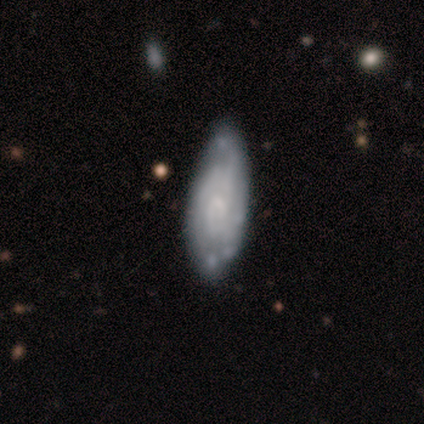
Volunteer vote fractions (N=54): A featured or disk galaxy (69%) with no bar (63%), tight (54%) spiral arms (80%) and a small central bulge (63%). Merging: none (57%).